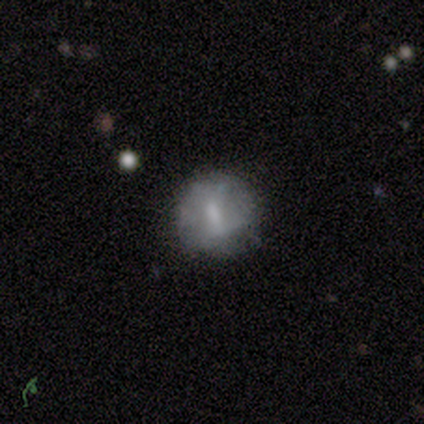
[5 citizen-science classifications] Volunteers were most divided on "merging" (2-way tie): none: 50%, minor disturbance: 50%, major disturbance: 0%, merger: 0%. More confident: how rounded — round (67%); smooth or featured — smooth (60%).